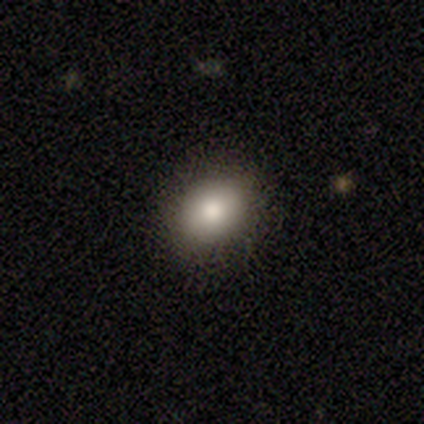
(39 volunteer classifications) smooth 87%, featured or disk 10%, star or artifact 3%. Down the decision tree: how rounded — round (62%); merging — none (89%).